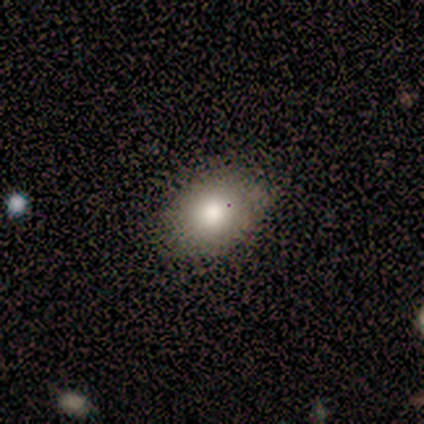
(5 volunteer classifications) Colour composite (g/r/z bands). It shows a smooth galaxy with no disk features (100%) that is in between round and cigar-shaped (80%). Merging: minor disturbance (60%).